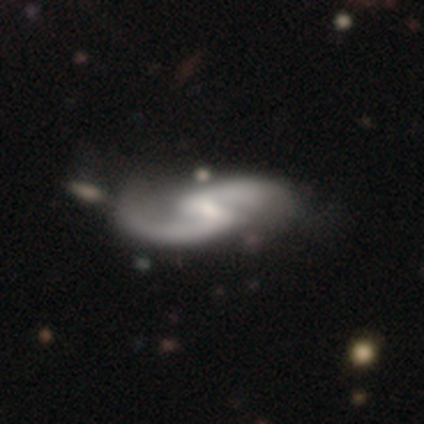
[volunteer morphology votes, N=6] Overall: featured or disk (83%). Edge-on disk: no (100%). Bar: weak (80%). Spiral arms: yes (100%). Spiral arm count: 2 (100%). Spiral winding: loose (80%). Bulge size: small (60%; none 40%). Merging: minor disturbance (67%).